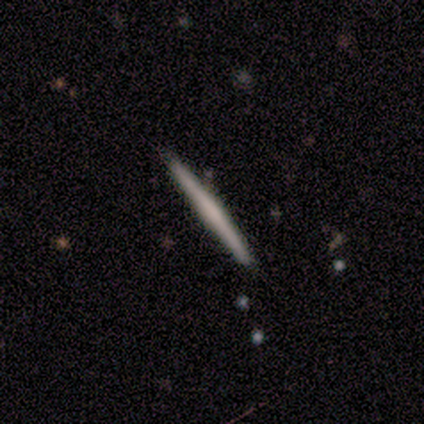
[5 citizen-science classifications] Morphology: type=smooth (40%, tied with featured or disk); roundness=cigar-shaped (100%); merging=none (100%).